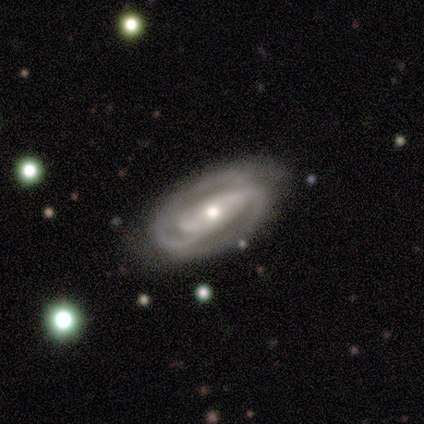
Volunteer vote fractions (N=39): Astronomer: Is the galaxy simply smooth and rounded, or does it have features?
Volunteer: featured or disk — 90%.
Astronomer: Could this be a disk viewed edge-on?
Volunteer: no — 94%.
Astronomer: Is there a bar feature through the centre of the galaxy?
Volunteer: no — 55% (runner-up: strong, 30%).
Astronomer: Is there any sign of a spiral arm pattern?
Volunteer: yes — 85%.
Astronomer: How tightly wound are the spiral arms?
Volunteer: tight — 57% (runner-up: medium, 36%).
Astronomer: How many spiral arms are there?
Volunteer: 2 — 68%.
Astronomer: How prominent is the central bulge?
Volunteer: small — 55% (runner-up: moderate, 42%).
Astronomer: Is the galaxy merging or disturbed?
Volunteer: none — 74%.